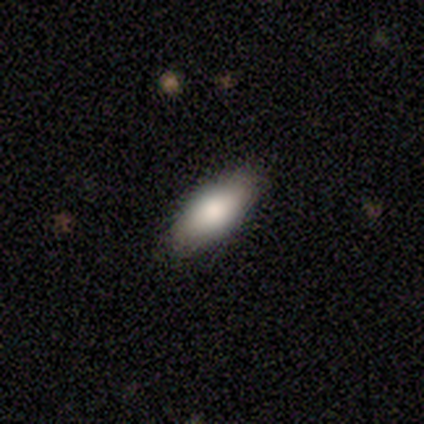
Q: Smooth or featured?
A: smooth (100%)
Q: How rounded?
A: in between (100%)
Q: Merging?
A: none (60%); runner-up: minor disturbance (40%)